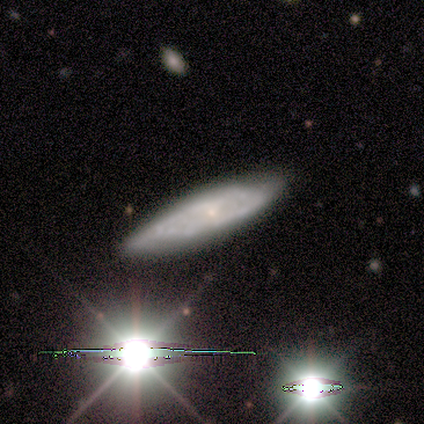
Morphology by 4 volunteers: type=featured or disk (50%); edge-on=no (100%); bar=no (100%); spiral arms=yes (100%); winding=tight (50%, tied with medium); arm count=can't tell (100%); bulge=small (50%, tied with none); merging=none (67%).